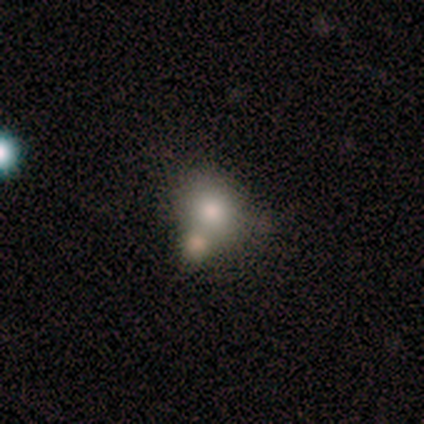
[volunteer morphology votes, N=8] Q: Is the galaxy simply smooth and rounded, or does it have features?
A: smooth — 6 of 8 (75%).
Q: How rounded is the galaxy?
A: round — 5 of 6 (83%).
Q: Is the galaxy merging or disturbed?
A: none — 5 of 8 (62%).